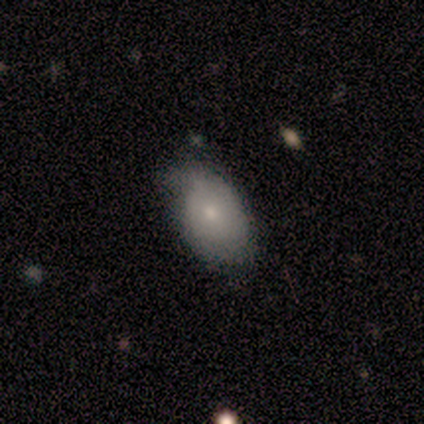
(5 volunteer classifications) smooth_or_featured: smooth (p=0.80) [alt: featured or disk p=0.20]
how_rounded: in between (p=0.75) [alt: round p=0.25]
merging: minor disturbance (p=0.60) [alt: none p=0.40]